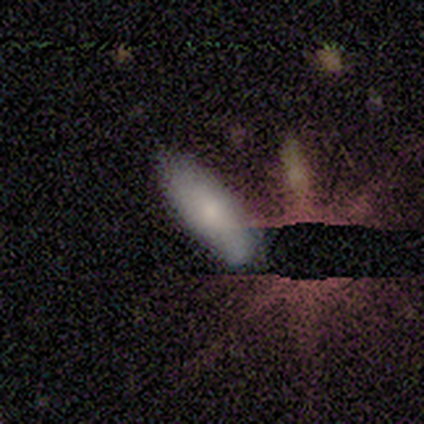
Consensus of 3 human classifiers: smooth 100%, featured or disk 0%, star or artifact 0%. Down the decision tree: how rounded — in between (100%); merging — none (67%).